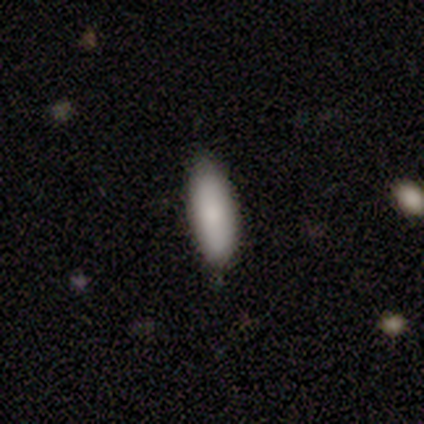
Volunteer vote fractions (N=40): Smooth or featured?
  - smooth: 90% *
  - featured or disk: 8%
  - star or artifact: 2%
How rounded?
  - in between: 75% *
  - cigar-shaped: 22%
  - round: 3%
Merging?
  - none: 74% *
  - minor disturbance: 21%
  - major disturbance: 3%
  - merger: 3%